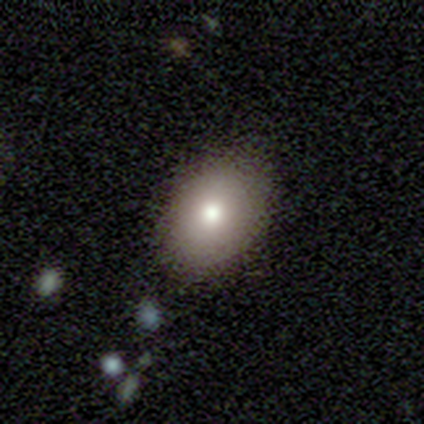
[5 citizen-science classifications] A smooth galaxy with no disk features (80%) that is in between round and cigar-shaped (75%).

Vote fractions:
- Smooth or featured? smooth: 80% / featured or disk: 20% / star or artifact: 0%
- How rounded? in between: 75% / round: 25% / cigar-shaped: 0%
- Merging? none: 80% / major disturbance: 20% / minor disturbance: 0% / merger: 0%